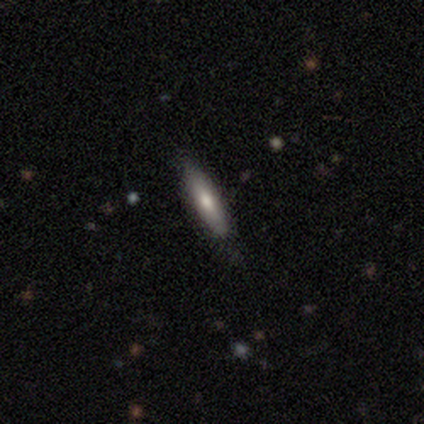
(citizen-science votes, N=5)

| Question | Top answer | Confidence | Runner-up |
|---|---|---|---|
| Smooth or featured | smooth | 80% | featured or disk (20%) |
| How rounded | in between | 50% | tied: cigar-shaped (50%) |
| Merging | none | 80% | minor disturbance (20%) |